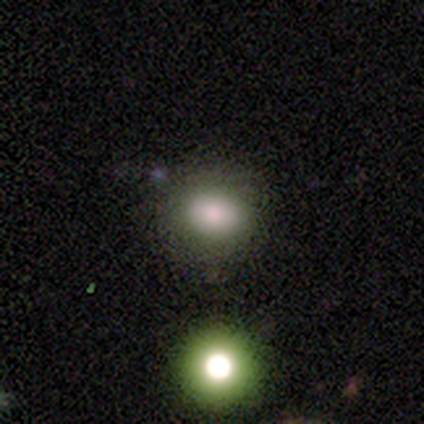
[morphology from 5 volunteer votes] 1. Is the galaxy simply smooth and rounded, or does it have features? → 40% smooth (tied), 40% star or artifact (tied), 20% featured or disk.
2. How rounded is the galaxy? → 50% round (tied), 50% in between (tied), 0% cigar-shaped.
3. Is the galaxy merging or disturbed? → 100% none, 0% minor disturbance, 0% major disturbance, 0% merger.